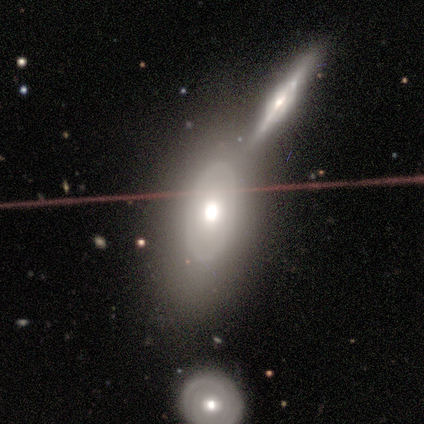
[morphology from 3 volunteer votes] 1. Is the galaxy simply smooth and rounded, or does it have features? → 67% featured or disk, 33% smooth, 0% star or artifact.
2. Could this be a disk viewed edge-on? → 100% no, 0% yes.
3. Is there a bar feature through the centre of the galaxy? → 100% no, 0% strong, 0% weak.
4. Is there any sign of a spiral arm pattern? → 100% no, 0% yes.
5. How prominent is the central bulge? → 100% moderate, 0% dominant, 0% large, 0% small, 0% none.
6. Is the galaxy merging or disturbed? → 67% none, 33% minor disturbance, 0% major disturbance, 0% merger.